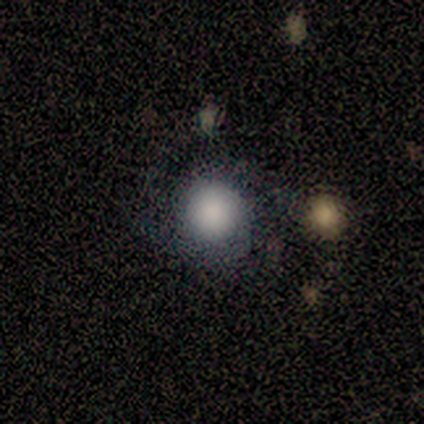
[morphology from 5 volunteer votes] Smooth or featured: smooth — 40% (tied with featured or disk — 40%)
How rounded: round — 100%
Merging: none — 75% (merger — 25%)